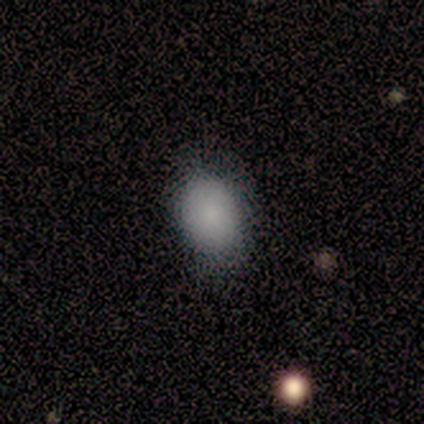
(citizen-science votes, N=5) Q: Smooth or featured?
A: smooth (80%); runner-up: star or artifact (20%)
Q: How rounded?
A: round (50%); tied with: in between (50%)
Q: Merging?
A: none (75%); runner-up: minor disturbance (25%)